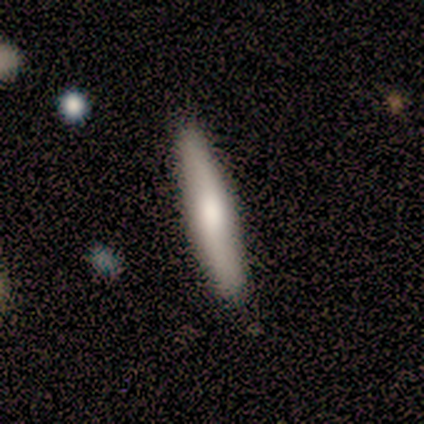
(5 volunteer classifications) This appears to be a smooth galaxy with no disk features (40%, tied with featured or disk) that is in between round and cigar-shaped (50%, tied with cigar-shaped). Merging: none (75%).